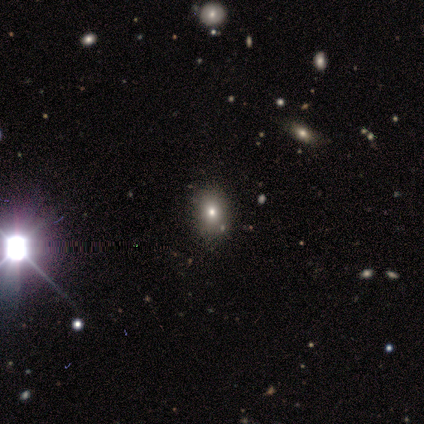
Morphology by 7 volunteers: Q: Smooth or featured?
A: star or artifact (57%); runner-up: smooth (29%)